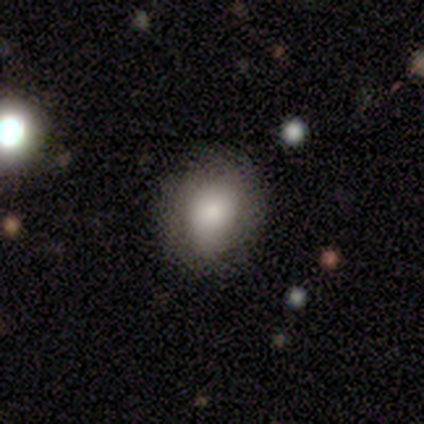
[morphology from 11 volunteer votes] smooth-or-featured: smooth: 91% | featured or disk: 9% | star or artifact: 0%
  how-rounded: round: 50% (tied) | in between: 50% (tied) | cigar-shaped: 0%
  merging: none: 91% | major disturbance: 9% | minor disturbance: 0% | merger: 0%